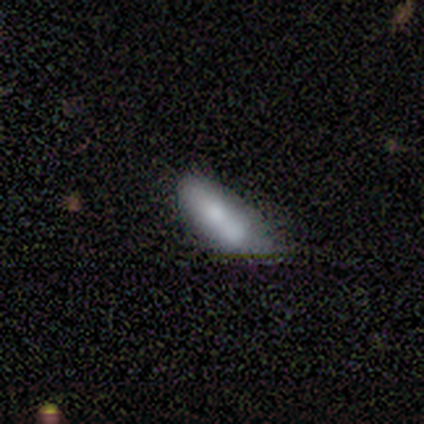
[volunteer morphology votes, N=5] type=smooth (80%); roundness=in between (100%); merging=minor disturbance (50%).